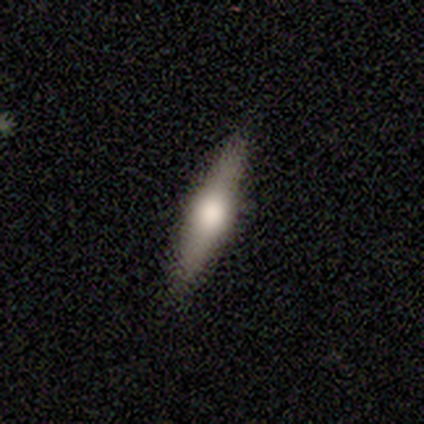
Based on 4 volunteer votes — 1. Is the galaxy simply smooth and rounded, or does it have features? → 50% featured or disk, 25% smooth, 25% star or artifact.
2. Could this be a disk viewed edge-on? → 50% yes (tied), 50% no (tied).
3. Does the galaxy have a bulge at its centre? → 100% rounded, 0% boxy, 0% none.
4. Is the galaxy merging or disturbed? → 100% none, 0% minor disturbance, 0% major disturbance, 0% merger.